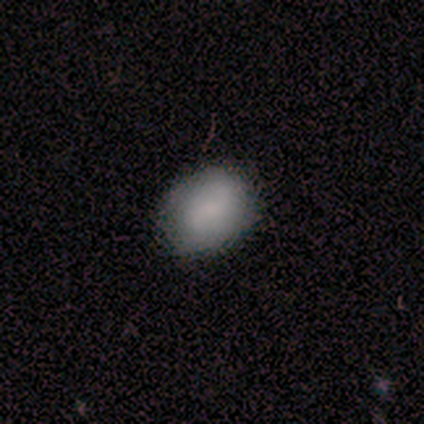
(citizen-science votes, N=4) Volunteers were most divided on "how rounded" (2-way tie): round: 50%, in between: 50%, cigar-shaped: 0%; "merging" (2-way tie): none: 50%, minor disturbance: 50%, major disturbance: 0%, merger: 0%. More confident: smooth or featured — smooth (100%).